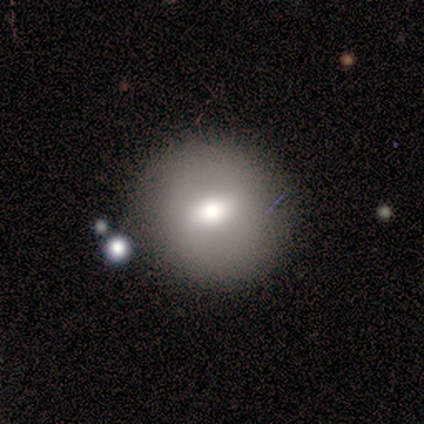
A smooth galaxy with no disk features (70%) that is round (100%).

Vote fractions:
- Smooth or featured? smooth: 70% / featured or disk: 30% / star or artifact: 0%
- How rounded? round: 100% / in between: 0% / cigar-shaped: 0%
- Merging? none: 90% / major disturbance: 10% / minor disturbance: 0% / merger: 0%